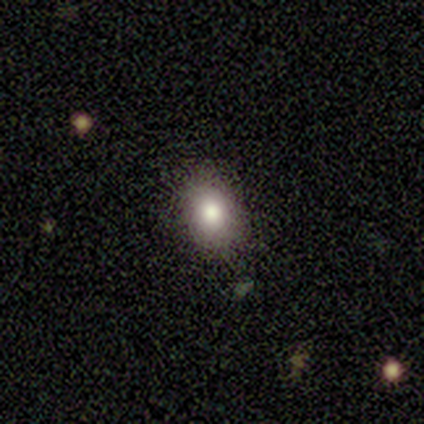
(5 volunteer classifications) smooth_or_featured: smooth (p=0.80) [alt: featured or disk p=0.20]
how_rounded: in between (p=1.00)
merging: none (p=1.00)